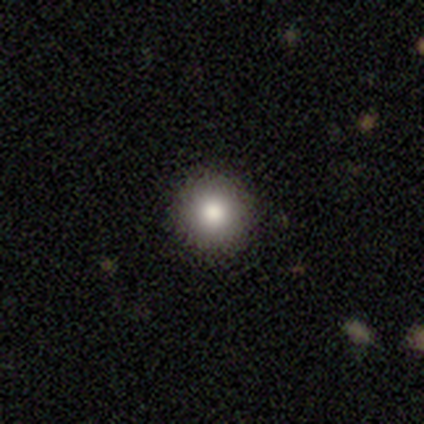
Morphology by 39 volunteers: Smooth or featured?
  - smooth: 77% *
  - star or artifact: 15%
  - featured or disk: 8%
How rounded?
  - round: 93% *
  - in between: 3%
  - cigar-shaped: 3%
Merging?
  - none: 91% *
  - minor disturbance: 6%
  - major disturbance: 3%
  - merger: 0%